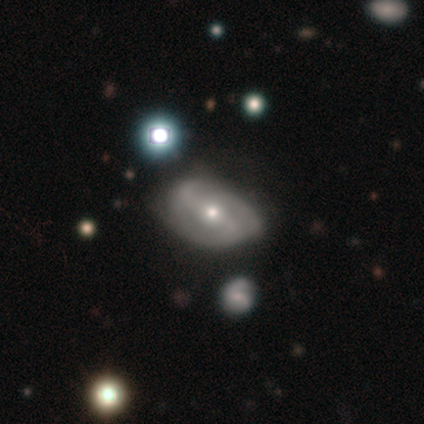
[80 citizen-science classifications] This is likely a featured or disk galaxy (79%). It is clearly not viewed edge-on (95%). Bar: possibly strong (50%). Spiral arm pattern: likely yes (77%). Spiral arm count: possibly 2 (50%). Spiral winding: marginally medium (43%). Central bulge: possibly small (50%). Merging: marginally none (36%).